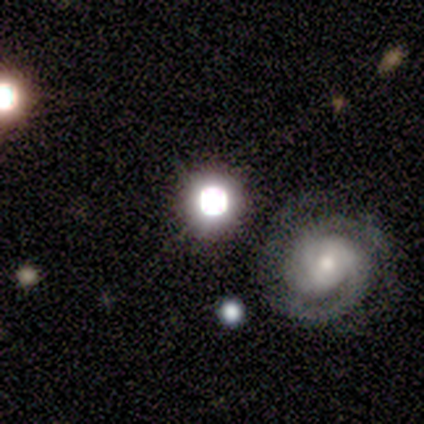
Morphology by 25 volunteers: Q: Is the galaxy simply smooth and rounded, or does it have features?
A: star or artifact — 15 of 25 (60%).